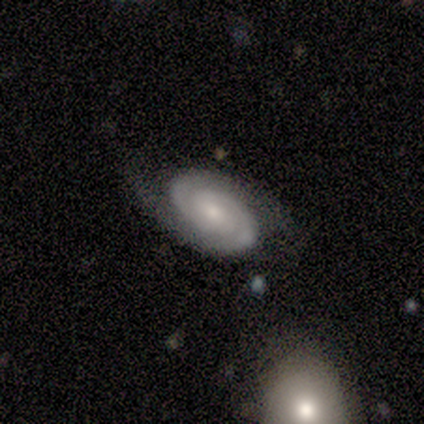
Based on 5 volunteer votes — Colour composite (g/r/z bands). It shows a featured or disk galaxy (100%) with no bar (80%), 2 (100%) tight (50%, tied with medium) spiral arms (80%) and a small central bulge (80%). Merging: none (80%).